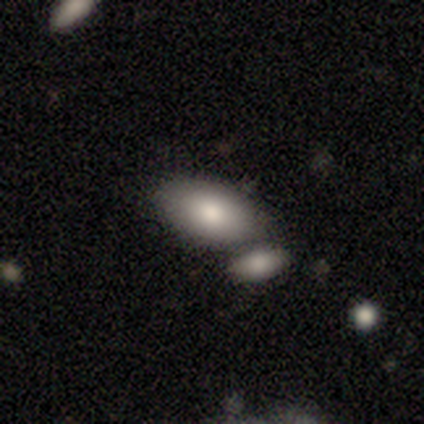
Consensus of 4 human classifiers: Morphology: type=smooth (100%); roundness=in between (100%); merging=merger (75%).